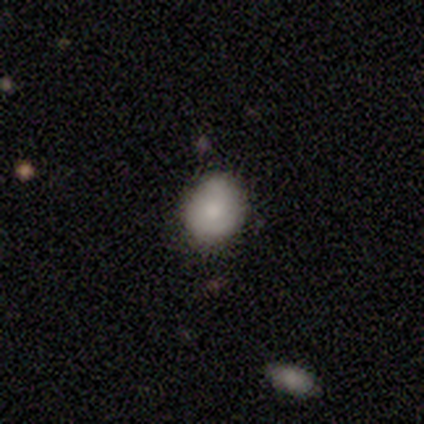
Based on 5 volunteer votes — This is clearly a smooth galaxy (100%). How rounded: clearly round (80%). Merging: clearly none (100%).